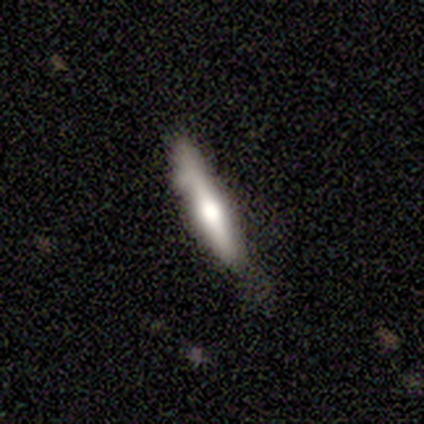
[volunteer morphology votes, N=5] Smooth or featured? 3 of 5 (60%) said featured or disk. Edge-on disk? 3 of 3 (100%) said yes. Edge-on bulge? 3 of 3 (100%) said rounded. Merging? 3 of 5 (60%) said none.